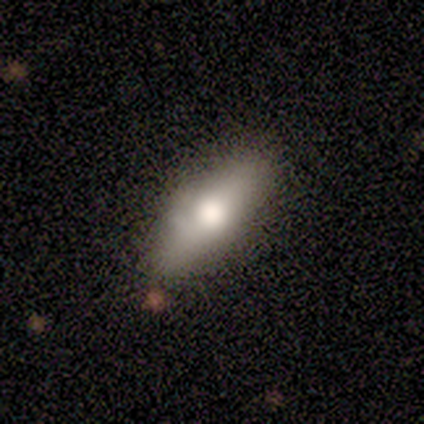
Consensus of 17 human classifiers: Smooth or featured?
  - smooth: 94% *
  - featured or disk: 6%
  - star or artifact: 0%
How rounded?
  - cigar-shaped: 69% *
  - in between: 31%
  - round: 0%
Merging?
  - none: 82% *
  - minor disturbance: 12%
  - major disturbance: 6%
  - merger: 0%